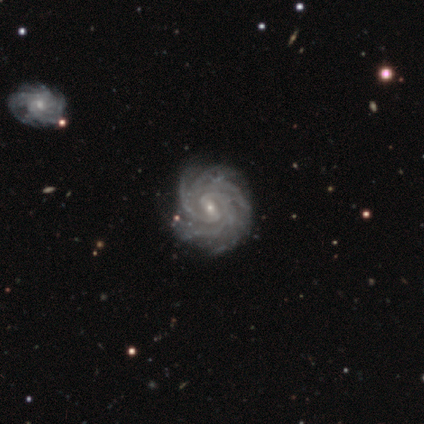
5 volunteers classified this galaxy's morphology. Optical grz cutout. It shows a featured or disk galaxy (100%) with a weak bar (50%, tied with no), more than 4 (50%, tied with can't tell) tight (50%, tied with medium) spiral arms (100%) and a small central bulge (75%). Merging: none (100%).